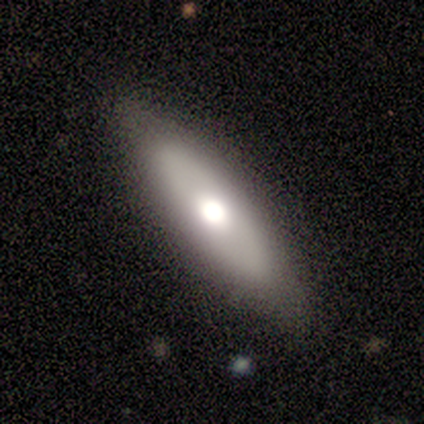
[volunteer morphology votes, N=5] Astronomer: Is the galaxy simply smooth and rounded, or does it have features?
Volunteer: smooth — 60% (runner-up: featured or disk, 40%).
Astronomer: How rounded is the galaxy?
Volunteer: cigar-shaped — 100%.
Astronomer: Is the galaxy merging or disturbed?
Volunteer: none — 60% (runner-up: minor disturbance, 40%).